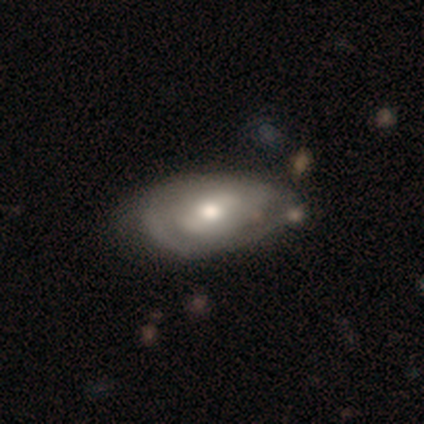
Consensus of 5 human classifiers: Q: Smooth or featured?
A: featured or disk (80%); runner-up: smooth (20%)
Q: Edge-on disk?
A: no (75%); runner-up: yes (25%)
Q: Bar?
A: weak (67%); runner-up: no (33%)
Q: Spiral arms?
A: yes (100%)
Q: Spiral winding?
A: tight (100%)
Q: Spiral arm count?
A: 2 (100%)
Q: Bulge size?
A: large (33%); tied with: moderate (33%); small (33%)
Q: Merging?
A: none (60%); runner-up: merger (40%)